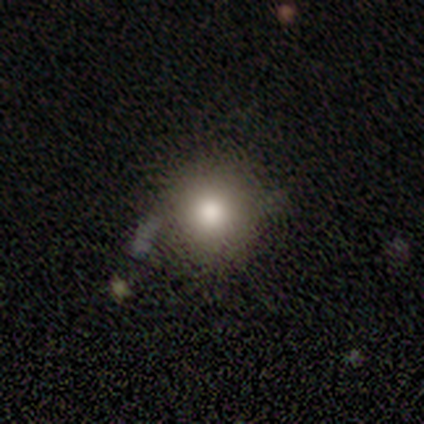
A smooth galaxy with no disk features (100%) that is round (86%).

Vote fractions:
- Smooth or featured? smooth: 100% / featured or disk: 0% / star or artifact: 0%
- How rounded? round: 86% / in between: 14% / cigar-shaped: 0%
- Merging? none: 57% / minor disturbance: 29% / major disturbance: 14% / merger: 0%